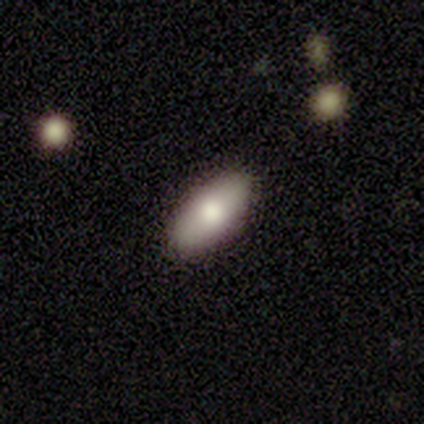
Morphology: type=smooth (89%); roundness=in between (100%); merging=none (100%).